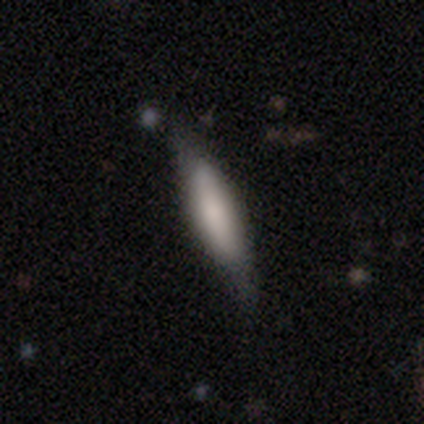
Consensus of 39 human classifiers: A smooth galaxy with no disk features (62%) that is cigar-shaped (67%).

Vote fractions:
- Smooth or featured? smooth: 62% / featured or disk: 36% / star or artifact: 3%
- How rounded? cigar-shaped: 67% / in between: 33% / round: 0%
- Merging? none: 79% / minor disturbance: 13% / major disturbance: 5% / merger: 3%